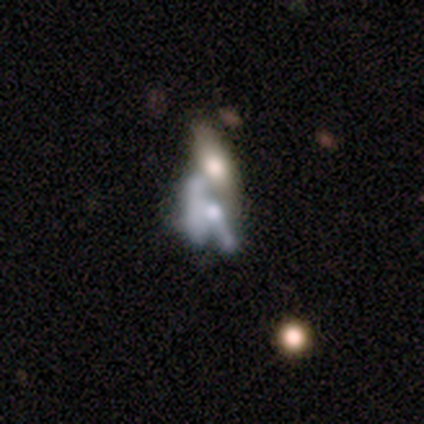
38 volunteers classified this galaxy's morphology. A featured or disk galaxy (58%) with no bar (76%), no spiral arms (81%) and a moderate central bulge (43%).

Vote fractions:
- Smooth or featured? featured or disk: 58% / smooth: 32% / star or artifact: 11%
- Edge-on disk? no: 95% / yes: 5%
- Bar? no: 76% / weak: 19% / strong: 5%
- Spiral arms? no: 81% / yes: 19%
- Bulge size? moderate: 43% / none: 24% / small: 19% / large: 14% / dominant: 0%
- Merging? merger: 82% / none: 9% / major disturbance: 9% / minor disturbance: 0%